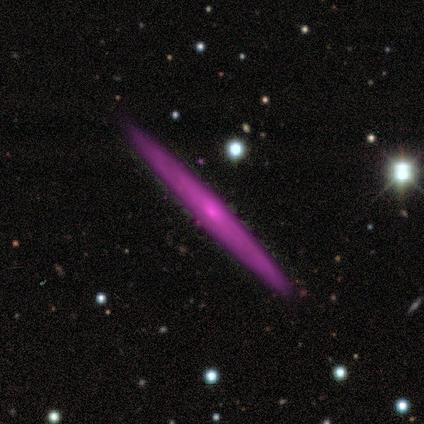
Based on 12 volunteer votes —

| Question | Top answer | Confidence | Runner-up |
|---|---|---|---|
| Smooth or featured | featured or disk | 50% | star or artifact (33%) |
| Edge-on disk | yes | 83% | no (17%) |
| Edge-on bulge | none | 60% | rounded (40%) |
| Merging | none | 100% | — |